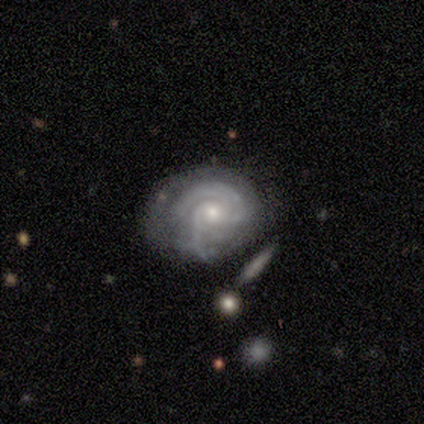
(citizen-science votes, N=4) featured or disk 100%, smooth 0%, star or artifact 0%. Down the decision tree: edge-on disk — no (100%); bar — no (75%); spiral arms — yes (100%); spiral arm count — 2 (50%); spiral winding — tight (100%); bulge size — small (75%); merging — minor disturbance (75%).